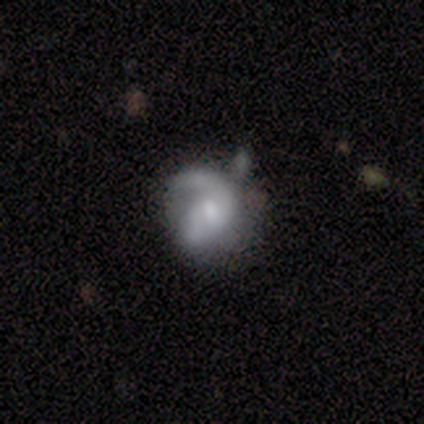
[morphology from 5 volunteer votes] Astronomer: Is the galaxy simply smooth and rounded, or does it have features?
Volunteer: featured or disk — 100%.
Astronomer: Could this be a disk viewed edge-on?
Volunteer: no — 100%.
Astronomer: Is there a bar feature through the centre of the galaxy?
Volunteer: no — 80%.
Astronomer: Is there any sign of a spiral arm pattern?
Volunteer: yes — 60% (runner-up: no, 40%).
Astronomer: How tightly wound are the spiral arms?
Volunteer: medium — 67%.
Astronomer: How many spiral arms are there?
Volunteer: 1 — 33%, tied with 2 and can't tell at 33%.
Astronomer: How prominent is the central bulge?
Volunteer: small — 60%.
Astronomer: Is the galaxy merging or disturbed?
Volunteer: minor disturbance — 40%, tied with merger at 40%.